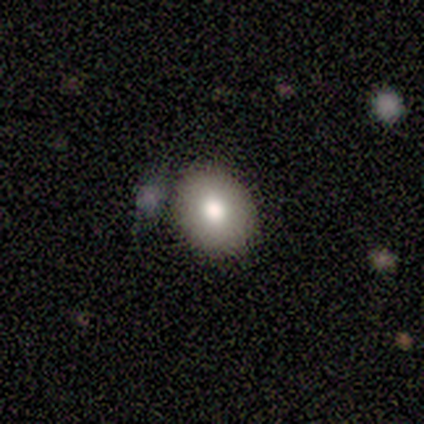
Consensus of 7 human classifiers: This appears to be a smooth galaxy with no disk features (57%) that is round (75%). Merging: none (100%).